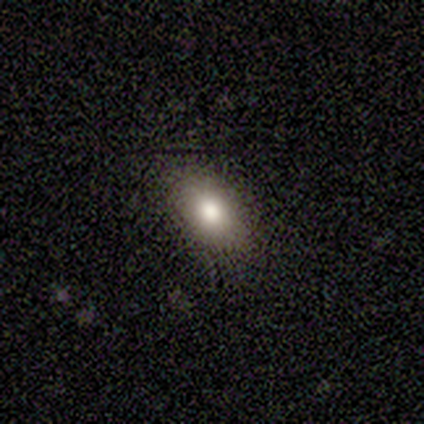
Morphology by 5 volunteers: smooth-or-featured: smooth: 80% | featured or disk: 20% | star or artifact: 0%
  how-rounded: in between: 75% | cigar-shaped: 25% | round: 0%
  merging: none: 80% | minor disturbance: 20% | major disturbance: 0% | merger: 0%